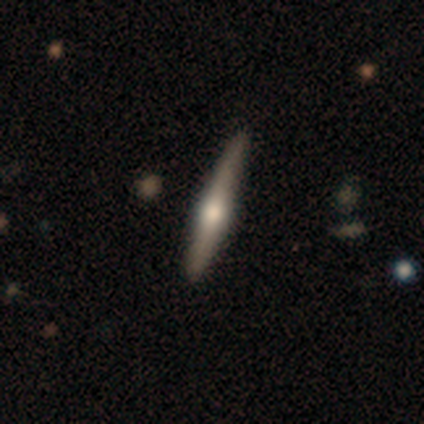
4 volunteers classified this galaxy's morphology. smooth-or-featured: featured or disk: 100% | smooth: 0% | star or artifact: 0%
  disk-edge-on: yes: 75% | no: 25%
    edge-on-bulge: rounded: 100% | boxy: 0% | none: 0%
  merging: none: 75% | minor disturbance: 25% | major disturbance: 0% | merger: 0%